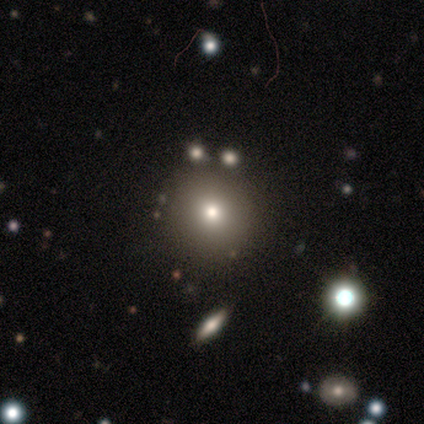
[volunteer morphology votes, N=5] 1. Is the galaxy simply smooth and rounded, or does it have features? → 80% smooth, 20% star or artifact, 0% featured or disk.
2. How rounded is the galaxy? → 100% round, 0% in between, 0% cigar-shaped.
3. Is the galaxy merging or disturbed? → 100% none, 0% minor disturbance, 0% major disturbance, 0% merger.